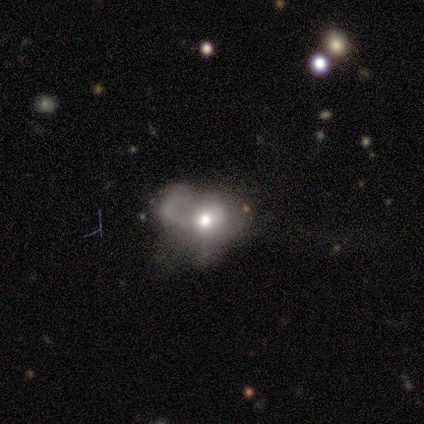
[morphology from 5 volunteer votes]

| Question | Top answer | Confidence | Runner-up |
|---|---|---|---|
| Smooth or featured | smooth | 40% | tied: featured or disk (40%) |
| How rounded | in between | 100% | — |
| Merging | major disturbance | 75% | merger (25%) |